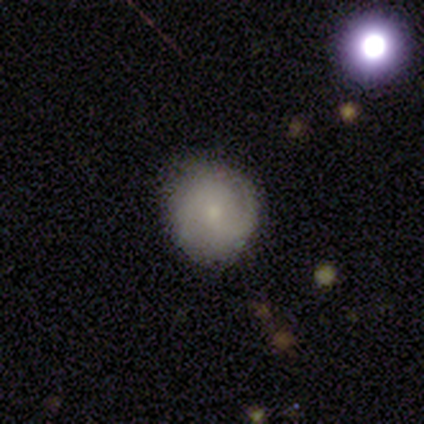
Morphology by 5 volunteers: A smooth galaxy with no disk features (60%) that is round (67%).

Vote fractions:
- Smooth or featured? smooth: 60% / star or artifact: 40% / featured or disk: 0%
- How rounded? round: 67% / in between: 33% / cigar-shaped: 0%
- Merging? minor disturbance: 100% / none: 0% / major disturbance: 0% / merger: 0%